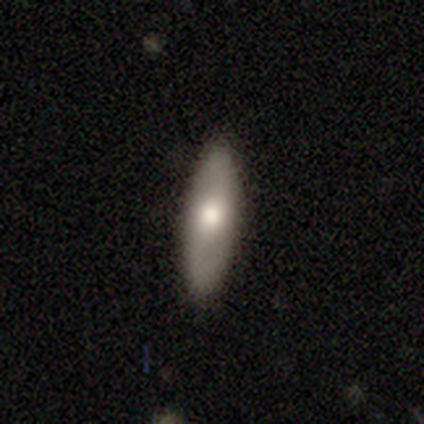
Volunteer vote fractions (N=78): Q: Smooth or featured?
A: smooth (64%); runner-up: featured or disk (35%)
Q: How rounded?
A: in between (64%); runner-up: cigar-shaped (36%)
Q: Merging?
A: none (48%); runner-up: minor disturbance (3%)